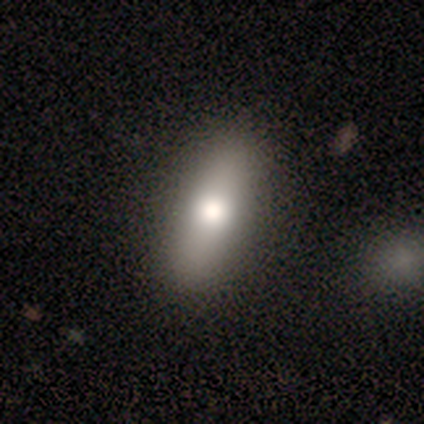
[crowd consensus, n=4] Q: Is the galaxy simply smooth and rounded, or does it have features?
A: smooth — 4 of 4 (100%).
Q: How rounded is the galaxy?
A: in between — 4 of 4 (100%).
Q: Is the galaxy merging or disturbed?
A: none — 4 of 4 (100%).